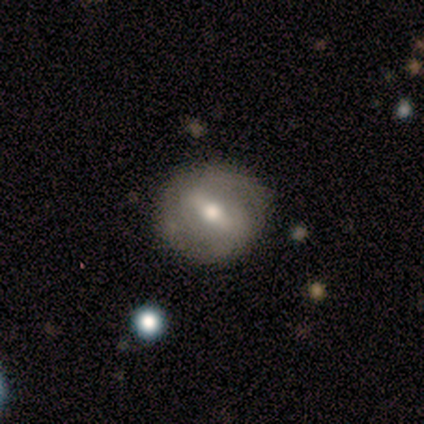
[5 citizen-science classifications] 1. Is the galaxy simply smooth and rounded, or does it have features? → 60% featured or disk, 40% smooth, 0% star or artifact.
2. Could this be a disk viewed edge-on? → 67% no, 33% yes.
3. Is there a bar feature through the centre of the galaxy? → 100% strong, 0% weak, 0% no.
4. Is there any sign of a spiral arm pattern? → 100% yes, 0% no.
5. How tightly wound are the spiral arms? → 50% medium (tied), 50% loose (tied), 0% tight.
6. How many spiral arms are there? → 100% 2, 0% 1, 0% 3, 0% 4, 0% more than 4, 0% can't tell.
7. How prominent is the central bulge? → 100% moderate, 0% dominant, 0% large, 0% small, 0% none.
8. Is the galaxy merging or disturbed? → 80% none, 20% major disturbance, 0% minor disturbance, 0% merger.